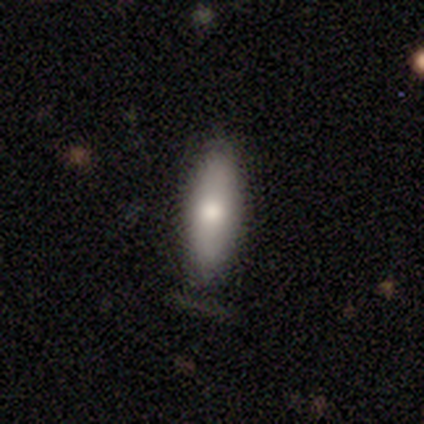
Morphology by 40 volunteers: Q: Smooth or featured?
A: smooth (75%); runner-up: featured or disk (20%)
Q: How rounded?
A: cigar-shaped (57%); runner-up: in between (43%)
Q: Merging?
A: none (95%); runner-up: minor disturbance (5%)